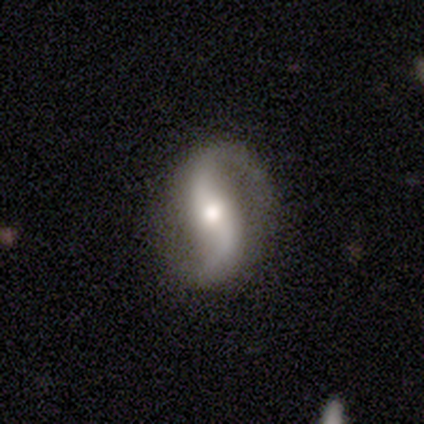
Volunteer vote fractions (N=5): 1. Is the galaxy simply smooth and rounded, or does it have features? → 100% featured or disk, 0% smooth, 0% star or artifact.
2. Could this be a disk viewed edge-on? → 100% no, 0% yes.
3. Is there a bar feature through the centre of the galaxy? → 80% no, 20% weak, 0% strong.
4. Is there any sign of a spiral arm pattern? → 100% yes, 0% no.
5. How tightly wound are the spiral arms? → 80% loose, 20% medium, 0% tight.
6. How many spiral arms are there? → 80% 2, 20% 1, 0% 3, 0% 4, 0% more than 4, 0% can't tell.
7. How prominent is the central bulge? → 40% large (tied), 40% moderate (tied), 20% small, 0% dominant, 0% none.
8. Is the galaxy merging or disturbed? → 100% none, 0% minor disturbance, 0% major disturbance, 0% merger.